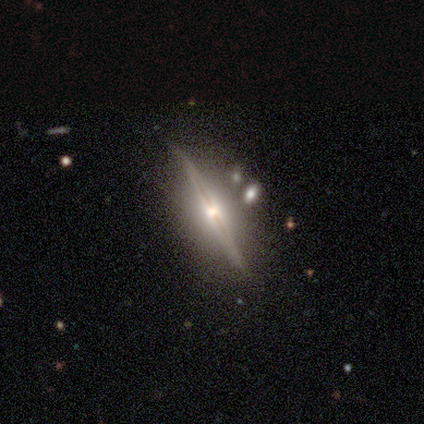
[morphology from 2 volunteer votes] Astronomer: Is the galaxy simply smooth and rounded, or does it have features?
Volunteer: featured or disk — 100%.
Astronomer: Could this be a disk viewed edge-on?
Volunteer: yes — 50%, tied with no at 50%.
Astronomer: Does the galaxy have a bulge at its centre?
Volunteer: rounded — 100%.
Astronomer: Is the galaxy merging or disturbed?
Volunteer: none — 100%.